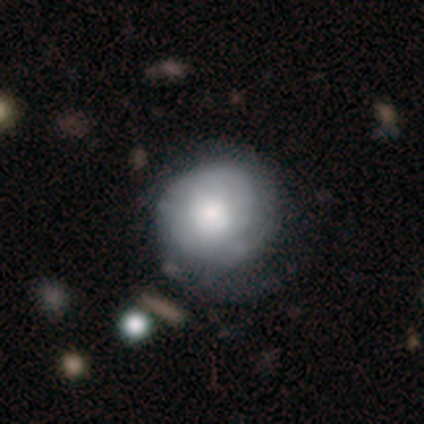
smooth 63%, featured or disk 34%, star or artifact 3%. Down the decision tree: how rounded — round (88%); merging — none (51%).